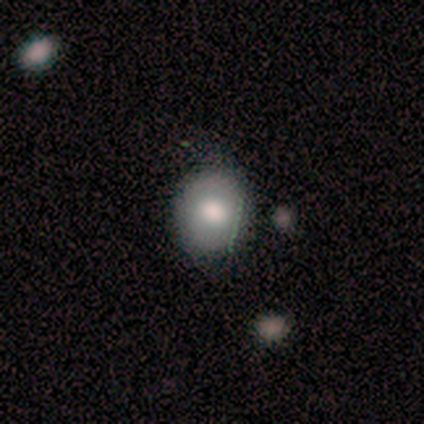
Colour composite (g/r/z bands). It shows a smooth galaxy with no disk features (73%) that is round (73%). Merging: none (76%).